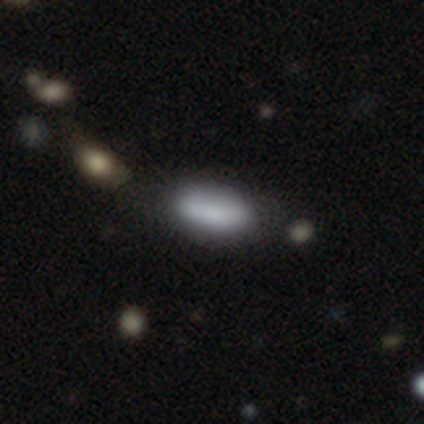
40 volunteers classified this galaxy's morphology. smooth-or-featured: smooth: 85% | featured or disk: 8% | star or artifact: 8%
  how-rounded: in between: 82% | cigar-shaped: 18% | round: 0%
  merging: none: 62% | minor disturbance: 32% | major disturbance: 3% | merger: 3%